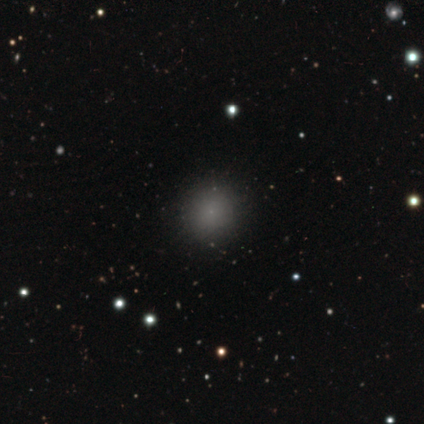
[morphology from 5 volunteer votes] Smooth or featured?
  - smooth: 60% *
  - featured or disk: 20%
  - star or artifact: 20%
How rounded?
  - round: 100% *
  - in between: 0%
  - cigar-shaped: 0%
Merging?
  - none: 100% *
  - minor disturbance: 0%
  - major disturbance: 0%
  - merger: 0%